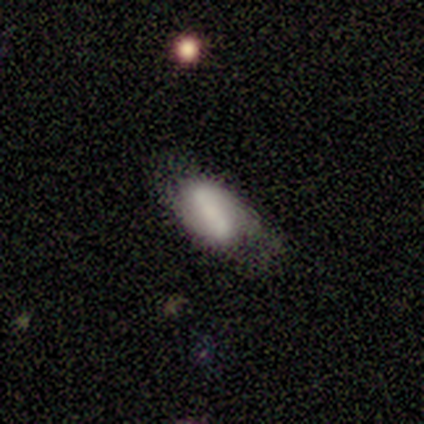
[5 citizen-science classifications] Overall: star or artifact (60%; smooth 20%).